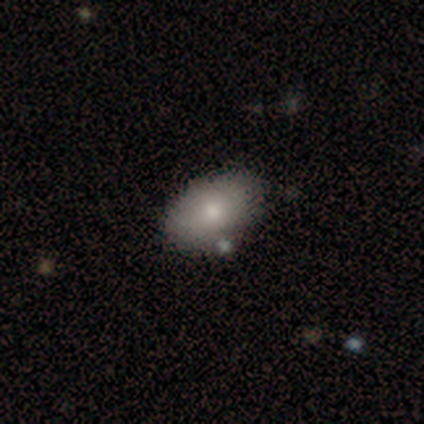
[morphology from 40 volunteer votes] Smooth or featured? smooth (85%)
How rounded? in between (91%)
Merging? none (85%)